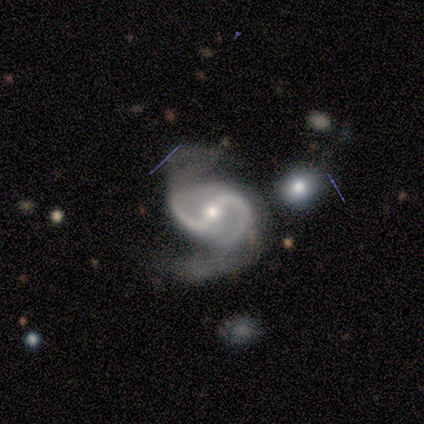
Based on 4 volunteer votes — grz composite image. It shows a featured or disk galaxy (100%) with a strong bar (75%), 2 (100%) tight (33%, tied with medium and loose) spiral arms (75%) and a moderate central bulge (75%). Merging: none (75%).